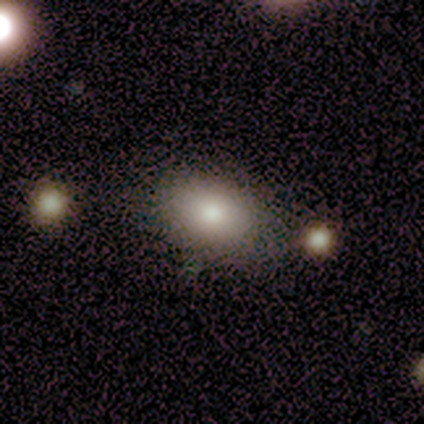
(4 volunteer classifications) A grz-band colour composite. It shows a smooth galaxy with no disk features (75%) that is in between round and cigar-shaped (67%). Merging: none (50%).